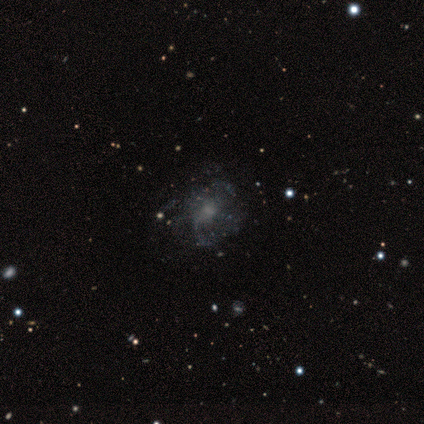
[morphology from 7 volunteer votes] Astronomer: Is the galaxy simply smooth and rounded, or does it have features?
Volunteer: featured or disk — 71%.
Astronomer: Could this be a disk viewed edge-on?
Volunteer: no — 100%.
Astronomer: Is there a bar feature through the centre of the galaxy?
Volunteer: no — 100%.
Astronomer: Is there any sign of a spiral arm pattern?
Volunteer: no — 60% (runner-up: yes, 40%).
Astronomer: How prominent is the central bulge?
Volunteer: small — 60% (runner-up: none, 40%).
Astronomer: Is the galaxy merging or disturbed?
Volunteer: none — 100%.